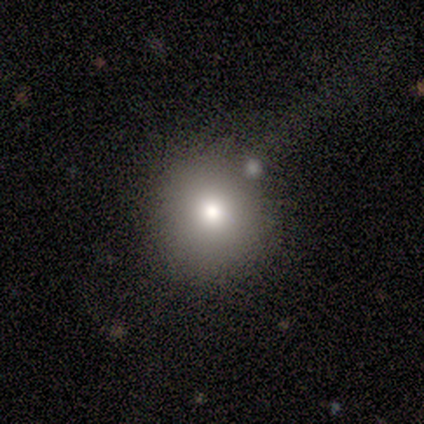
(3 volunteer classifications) A smooth galaxy with no disk features (100%) that is round (100%).

Vote fractions:
- Smooth or featured? smooth: 100% / featured or disk: 0% / star or artifact: 0%
- How rounded? round: 100% / in between: 0% / cigar-shaped: 0%
- Merging? minor disturbance: 67% / merger: 33% / none: 0% / major disturbance: 0%